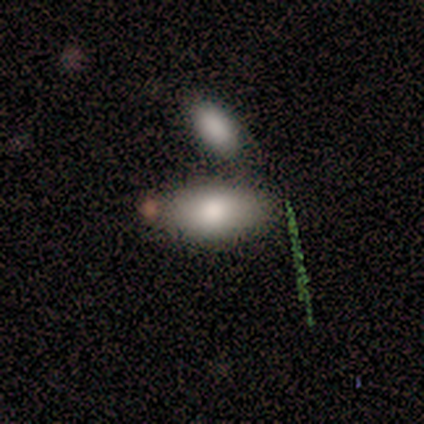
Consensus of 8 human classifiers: This is clearly a smooth galaxy (100%). How rounded: clearly in between (88%). Merging: possibly minor disturbance (50%).